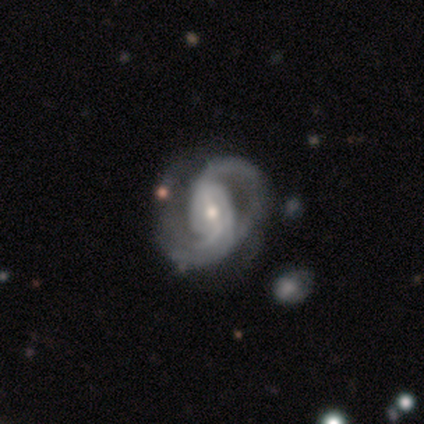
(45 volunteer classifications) This is clearly a featured or disk galaxy (96%). It is clearly not viewed edge-on (100%). Bar: possibly weak (47%). Spiral arm pattern: clearly yes (98%). Spiral arm count: clearly 2 (81%). Spiral winding: marginally medium (40%). Central bulge: likely moderate (60%). Merging: possibly none (47%).